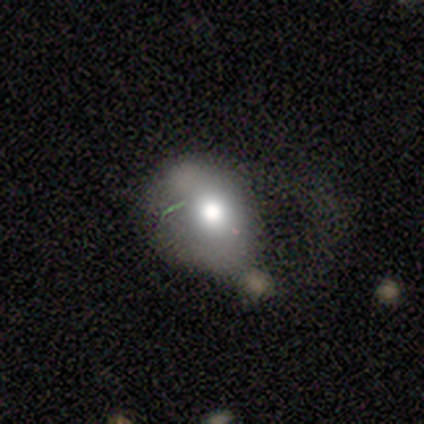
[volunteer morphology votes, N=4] type=smooth (75%); roundness=in between (100%); merging=none (50%).